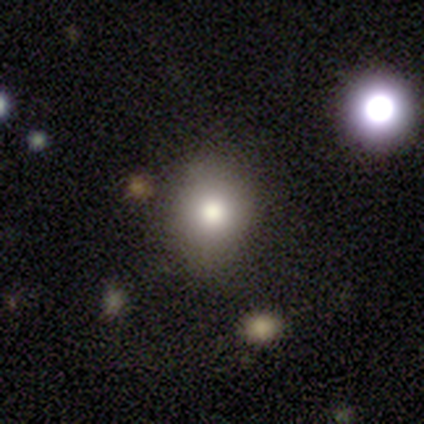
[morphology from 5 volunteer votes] smooth_or_featured: smooth (p=1.00)
how_rounded: round (p=0.60) [alt: in between p=0.40]
merging: none (p=1.00)